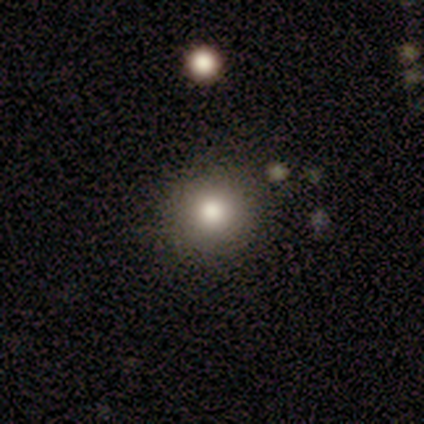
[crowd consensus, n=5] Q: Smooth or featured?
A: smooth (40%); tied with: star or artifact (40%)
Q: How rounded?
A: round (100%)
Q: Merging?
A: none (100%)